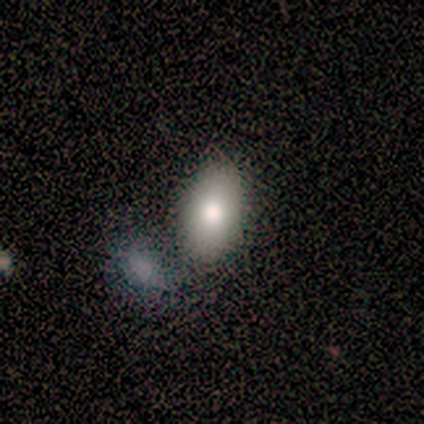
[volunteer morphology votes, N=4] smooth-or-featured: smooth: 100% | featured or disk: 0% | star or artifact: 0%
  how-rounded: in between: 100% | round: 0% | cigar-shaped: 0%
  merging: none: 50% | minor disturbance: 25% | merger: 25% | major disturbance: 0%